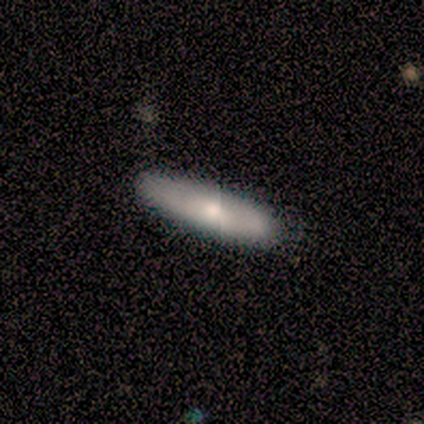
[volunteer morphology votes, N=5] Smooth or featured? 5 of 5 (100%) said smooth. How rounded? 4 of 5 (80%) said cigar-shaped. Merging? 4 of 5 (80%) said none.